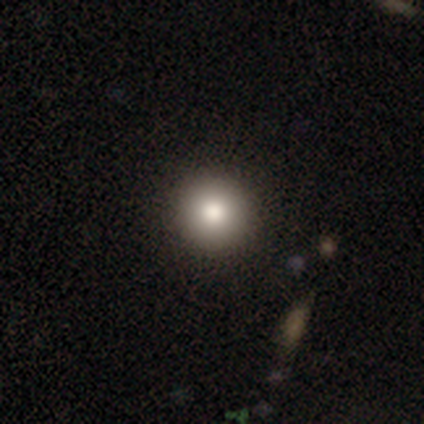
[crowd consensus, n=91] A smooth galaxy with no disk features (78%) that is round (100%).

Vote fractions:
- Smooth or featured? smooth: 78% / star or artifact: 12% / featured or disk: 10%
- How rounded? round: 100% / in between: 0% / cigar-shaped: 0%
- Merging? none: 92% / minor disturbance: 8% / major disturbance: 0% / merger: 0%